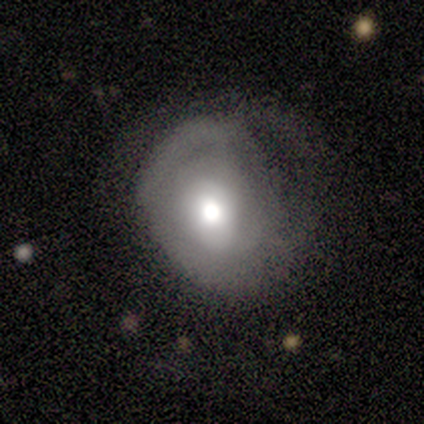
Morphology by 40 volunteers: Overall: smooth (55%; featured or disk 38%). How rounded: round (64%; in between 36%). Merging: none (41%; major disturbance 30%).